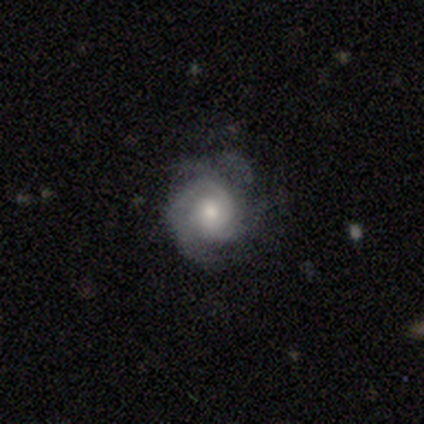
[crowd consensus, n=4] Smooth or featured: featured or disk — 75% (smooth — 25%)
Edge-on disk: no — 100%
Bar: no — 100%
Spiral arms: yes — 100%
Spiral winding: tight — 67% (medium — 33%)
Spiral arm count: 2 — 33% (tied with 3 — 33%; can't tell — 33%)
Bulge size: moderate — 67% (small — 33%)
Merging: none — 75% (minor disturbance — 25%)